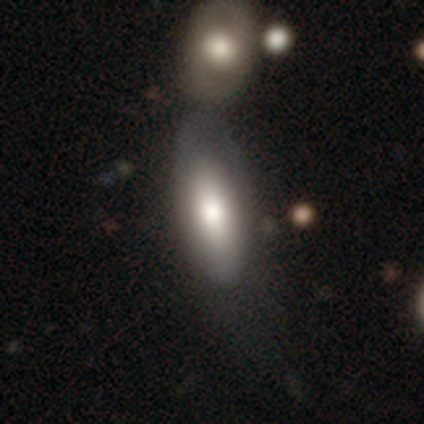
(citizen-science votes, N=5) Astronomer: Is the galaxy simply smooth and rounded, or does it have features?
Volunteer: smooth — 60% (runner-up: featured or disk, 40%).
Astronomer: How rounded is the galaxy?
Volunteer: in between — 67%.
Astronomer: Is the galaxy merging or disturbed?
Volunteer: none — 40%, tied with merger at 40%.